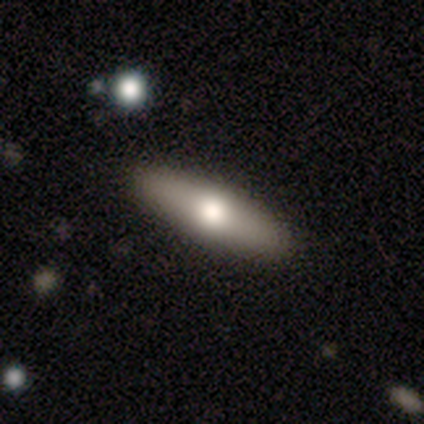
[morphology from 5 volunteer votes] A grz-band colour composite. It shows a smooth galaxy with no disk features (80%) that is in between round and cigar-shaped (50%, tied with cigar-shaped). Merging: none (100%).